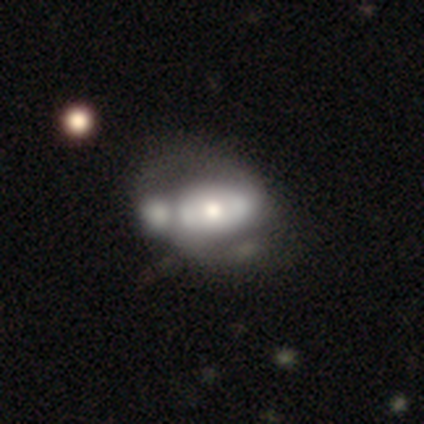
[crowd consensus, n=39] A featured or disk galaxy (67%) with no bar (54%), no spiral arms (58%) and a moderate central bulge (54%). Merging: merger (55%).